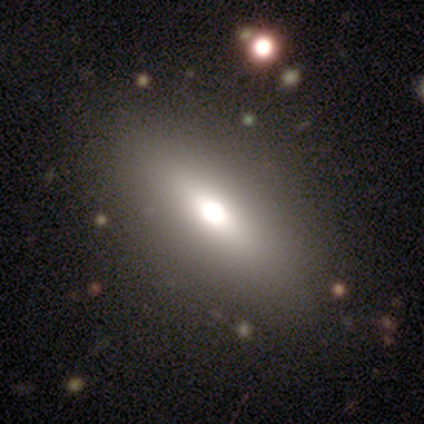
Smooth or featured?
  - smooth: 71% *
  - star or artifact: 16%
  - featured or disk: 13%
How rounded?
  - in between: 67% *
  - cigar-shaped: 33%
  - round: 0%
Merging?
  - none: 91% *
  - minor disturbance: 9%
  - major disturbance: 0%
  - merger: 0%